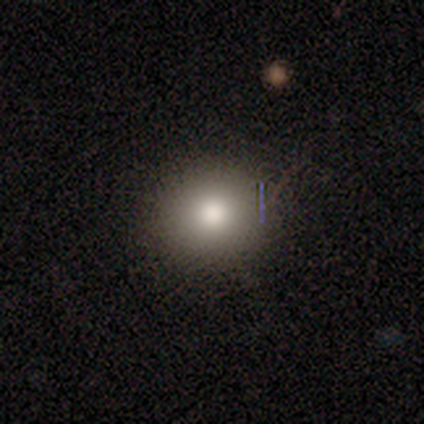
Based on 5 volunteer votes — Smooth or featured? smooth (100%)
How rounded? round (100%)
Merging? none (100%)